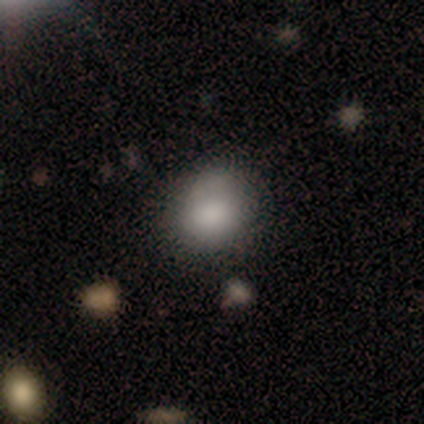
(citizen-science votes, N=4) Smooth or featured: smooth — 100%
How rounded: in between — 75% (round — 25%)
Merging: minor disturbance — 75% (none — 25%)